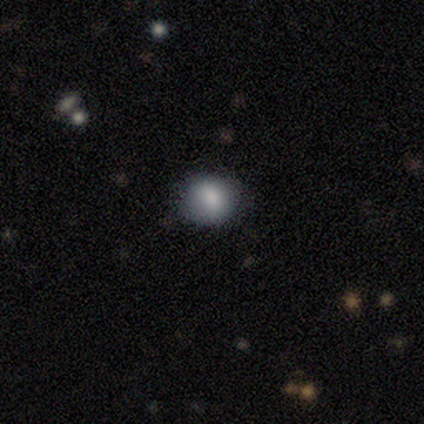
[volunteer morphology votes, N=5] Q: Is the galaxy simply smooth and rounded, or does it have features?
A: smooth — 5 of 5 (100%).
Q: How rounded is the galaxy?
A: round — 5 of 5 (100%).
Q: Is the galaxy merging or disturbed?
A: none — 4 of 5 (80%).